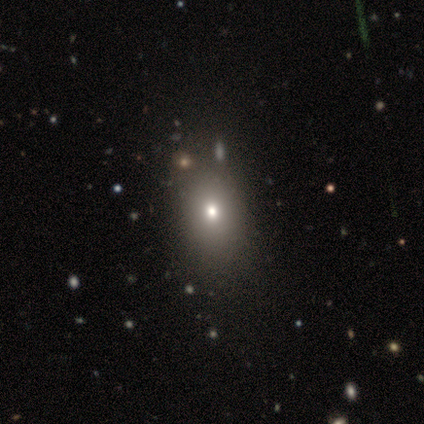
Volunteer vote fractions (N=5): A smooth galaxy with no disk features (60%) that is in between round and cigar-shaped (100%). Merging: none (100%).